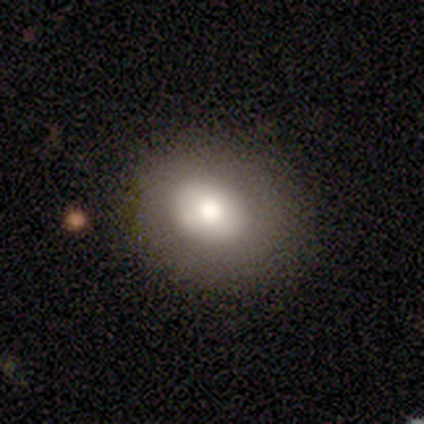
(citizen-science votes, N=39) Volunteers were most divided on "how rounded": in between: 52%, round: 48%, cigar-shaped: 0%. More confident: smooth or featured — smooth (74%); merging — none (62%).